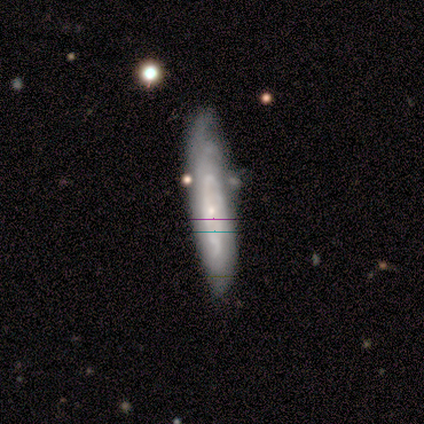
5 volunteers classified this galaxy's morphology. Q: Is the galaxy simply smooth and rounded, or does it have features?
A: featured or disk — 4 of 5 (80%).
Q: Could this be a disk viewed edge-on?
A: no — 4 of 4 (100%).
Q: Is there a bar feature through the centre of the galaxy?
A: no — 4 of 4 (100%).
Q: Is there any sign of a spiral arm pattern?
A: yes — 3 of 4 (75%).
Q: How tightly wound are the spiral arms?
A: medium — 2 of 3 (67%).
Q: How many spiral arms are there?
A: can't tell — 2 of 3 (67%).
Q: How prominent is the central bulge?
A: small — 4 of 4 (100%).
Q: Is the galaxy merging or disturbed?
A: none — 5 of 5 (100%).